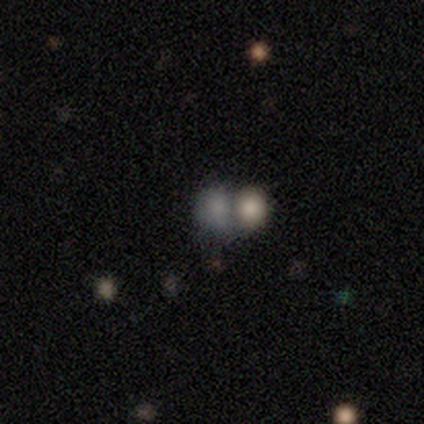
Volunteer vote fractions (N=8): Volunteers were most divided on "how rounded": round: 60%, in between: 40%, cigar-shaped: 0%. More confident: merging — merger (83%); smooth or featured — smooth (62%).